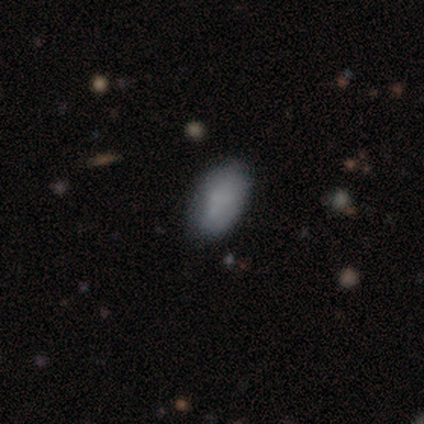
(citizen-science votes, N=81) This is likely a smooth galaxy (79%). How rounded: clearly in between (95%). Merging: clearly none (85%).